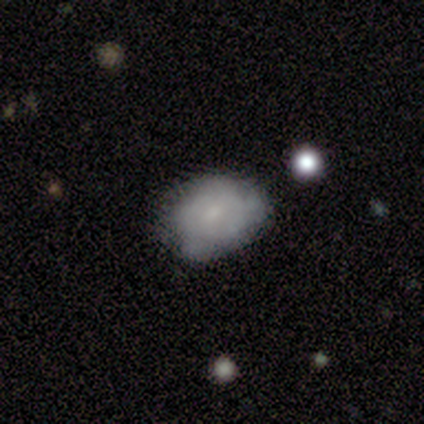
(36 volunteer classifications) Morphology: type=smooth (61%); roundness=in between (77%); merging=none (59%).